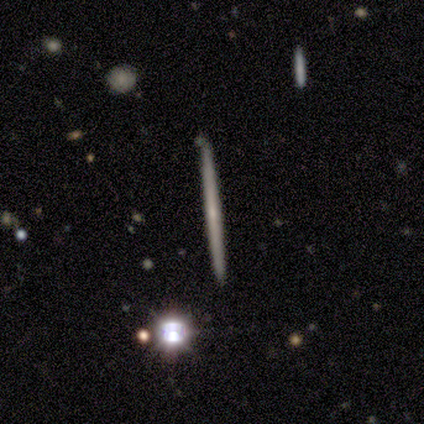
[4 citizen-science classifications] This appears to be a smooth galaxy with no disk features (50%, tied with featured or disk) that is cigar-shaped (100%). Merging: none (100%).